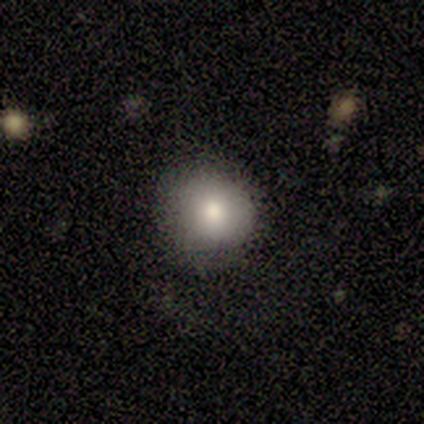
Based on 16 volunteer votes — Q: Smooth or featured?
A: smooth (88%); runner-up: featured or disk (12%)
Q: How rounded?
A: round (93%); runner-up: in between (7%)
Q: Merging?
A: none (81%); runner-up: minor disturbance (19%)